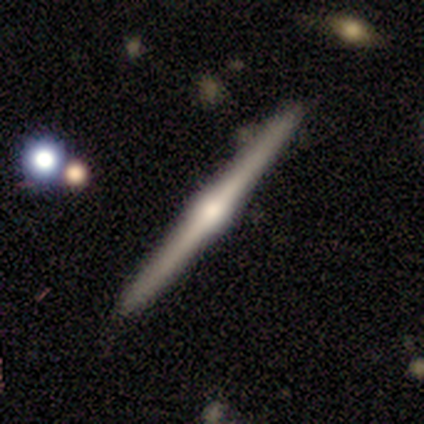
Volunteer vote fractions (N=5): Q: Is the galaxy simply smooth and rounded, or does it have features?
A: featured or disk — 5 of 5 (100%).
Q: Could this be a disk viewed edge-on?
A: yes — 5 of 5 (100%).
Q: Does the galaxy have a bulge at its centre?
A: rounded — 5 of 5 (100%).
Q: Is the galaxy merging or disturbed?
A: none — 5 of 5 (100%).